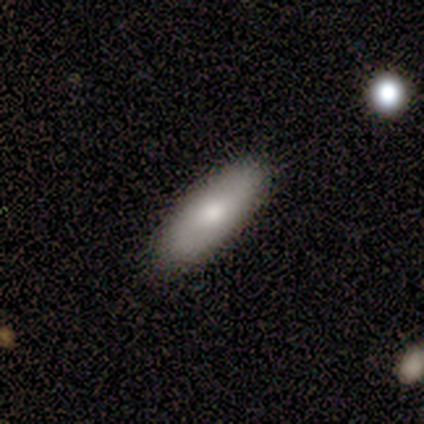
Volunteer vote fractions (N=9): Smooth or featured: smooth — 56% (featured or disk — 33%)
How rounded: cigar-shaped — 60% (in between — 40%)
Merging: none — 100%